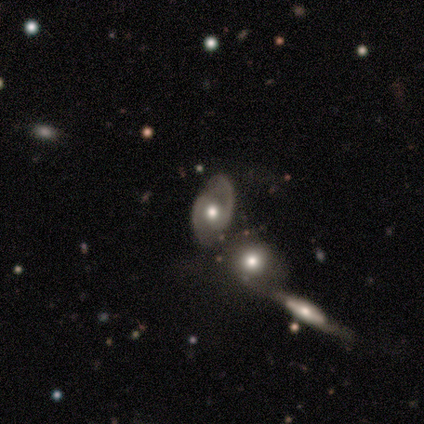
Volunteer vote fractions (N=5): This is clearly a featured or disk galaxy (100%). It is clearly not viewed edge-on (100%). Bar: marginally weak (40%, tied with no). Spiral arm pattern: clearly yes (100%). Spiral arm count: clearly 2 (100%). Spiral winding: clearly medium (100%). Central bulge: clearly moderate (80%). Merging: marginally none (40%).